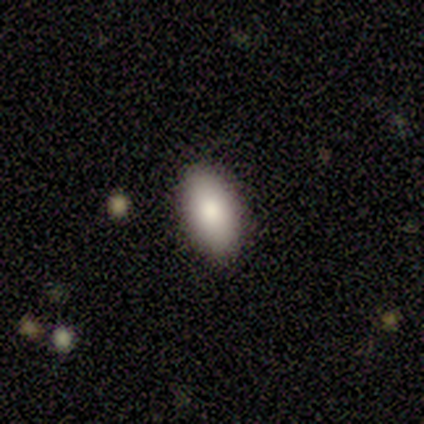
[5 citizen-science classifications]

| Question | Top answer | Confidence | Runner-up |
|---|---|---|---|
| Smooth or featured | smooth | 40% | tied: featured or disk (40%) |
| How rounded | in between | 100% | — |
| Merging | none | 75% | minor disturbance (25%) |